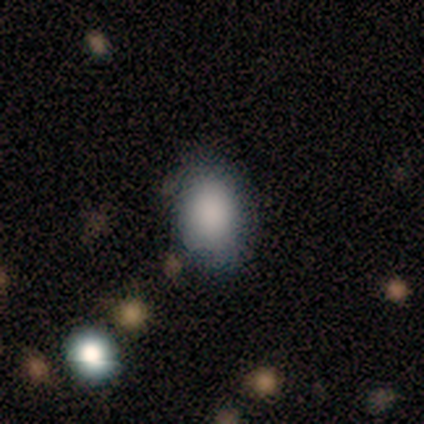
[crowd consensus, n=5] Smooth or featured?
  - smooth: 100% *
  - featured or disk: 0%
  - star or artifact: 0%
How rounded?
  - in between: 40% * (tied)
  - cigar-shaped: 40% * (tied)
  - round: 20%
Merging?
  - none: 80% *
  - minor disturbance: 20%
  - major disturbance: 0%
  - merger: 0%